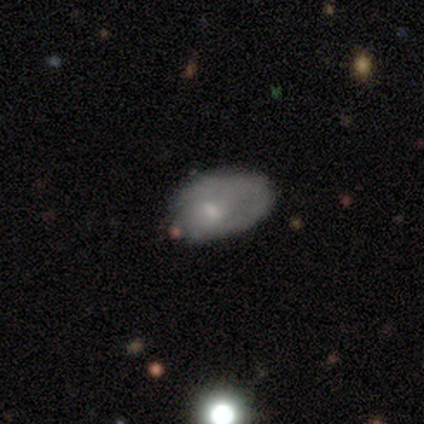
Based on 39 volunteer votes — smooth 49%, featured or disk 38%, star or artifact 13%. Down the decision tree: how rounded — in between (84%); merging — none (44%).